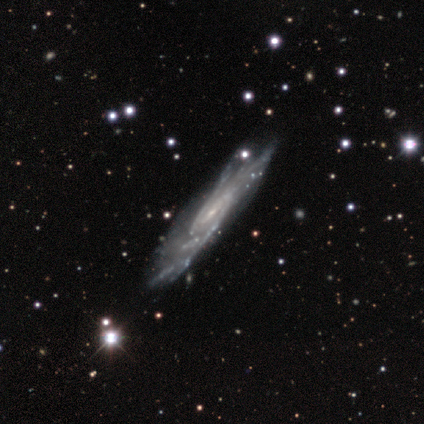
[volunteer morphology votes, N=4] Smooth or featured? 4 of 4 (100%) said featured or disk. Edge-on disk? 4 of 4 (100%) said no. Bar? 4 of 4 (100%) said weak. Spiral arms? 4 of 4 (100%) said yes. Spiral winding? 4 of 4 (100%) said medium. Spiral arm count? 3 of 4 (75%) said 2. Bulge size? 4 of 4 (100%) said small. Merging? 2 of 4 (50%) said none.